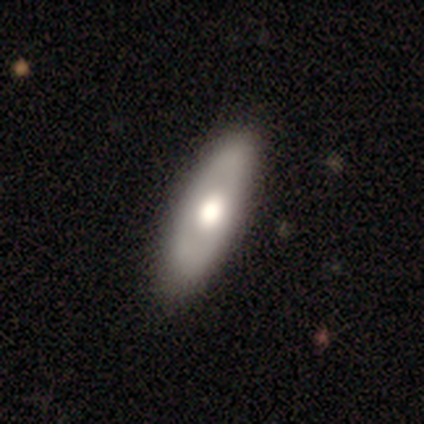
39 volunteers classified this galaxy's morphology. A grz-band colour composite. It shows a smooth galaxy with no disk features (62%) that is in between round and cigar-shaped (75%). Merging: none (69%).